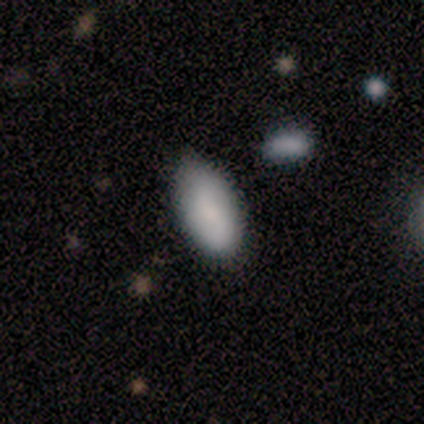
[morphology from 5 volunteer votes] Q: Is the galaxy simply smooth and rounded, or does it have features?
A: smooth — 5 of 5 (100%).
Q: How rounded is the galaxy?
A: in between — 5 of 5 (100%).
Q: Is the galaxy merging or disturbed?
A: none — 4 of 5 (80%).